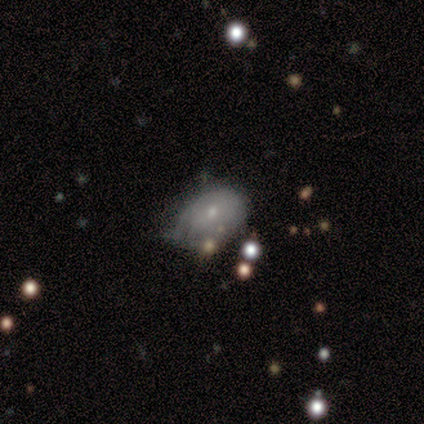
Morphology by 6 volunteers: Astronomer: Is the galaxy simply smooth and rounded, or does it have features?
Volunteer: smooth — 67%.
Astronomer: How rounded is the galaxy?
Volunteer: in between — 75%.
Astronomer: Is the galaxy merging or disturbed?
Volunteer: minor disturbance — 60% (runner-up: merger, 40%).